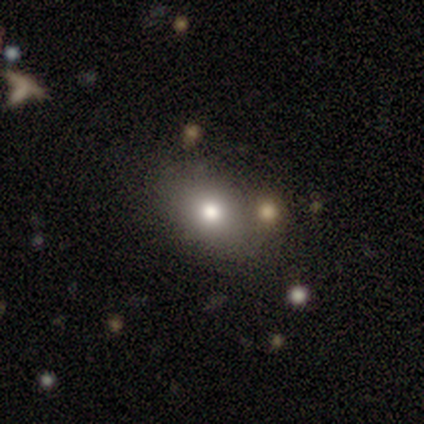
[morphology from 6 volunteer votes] smooth 100%, featured or disk 0%, star or artifact 0%. Down the decision tree: how rounded — in between (67%); merging — none (67%).